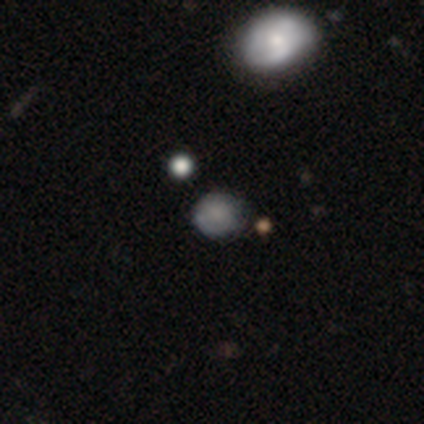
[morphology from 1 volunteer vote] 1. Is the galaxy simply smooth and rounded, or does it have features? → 100% smooth, 0% featured or disk, 0% star or artifact.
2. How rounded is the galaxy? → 100% round, 0% in between, 0% cigar-shaped.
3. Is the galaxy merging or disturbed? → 100% none, 0% minor disturbance, 0% major disturbance, 0% merger.